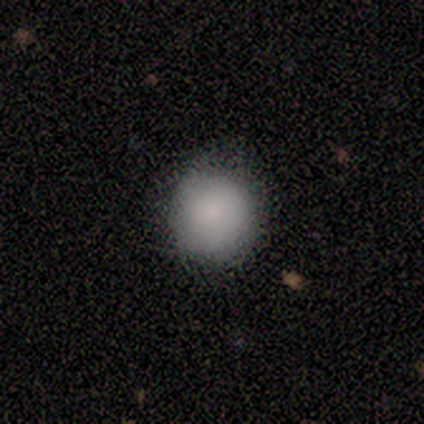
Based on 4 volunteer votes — smooth 100%, featured or disk 0%, star or artifact 0%. Down the decision tree: how rounded — round (100%); merging — none (100%).